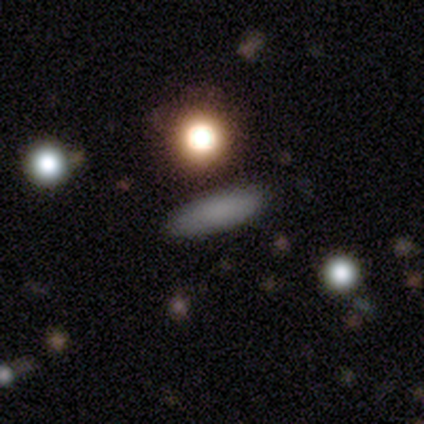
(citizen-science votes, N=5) Smooth or featured: smooth — 100%
How rounded: in between — 80% (cigar-shaped — 20%)
Merging: none — 100%